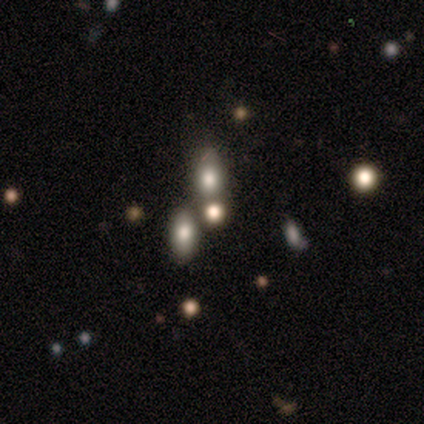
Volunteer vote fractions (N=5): Morphology: type=smooth (40%, tied with star or artifact); roundness=round (50%, tied with in between); merging=none (100%).